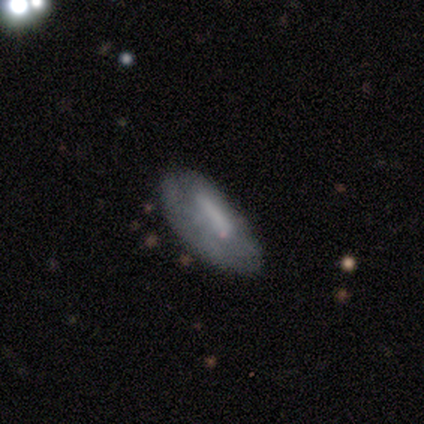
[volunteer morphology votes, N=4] smooth_or_featured: smooth (p=1.00)
how_rounded: in between (p=0.75) [alt: cigar-shaped p=0.25]
merging: none (p=0.75) [alt: major disturbance p=0.25]